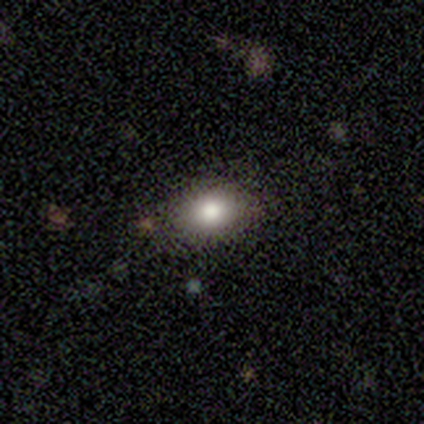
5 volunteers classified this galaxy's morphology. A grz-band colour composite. It shows a smooth galaxy with no disk features (60%) that is in between round and cigar-shaped (100%). Merging: none (67%).